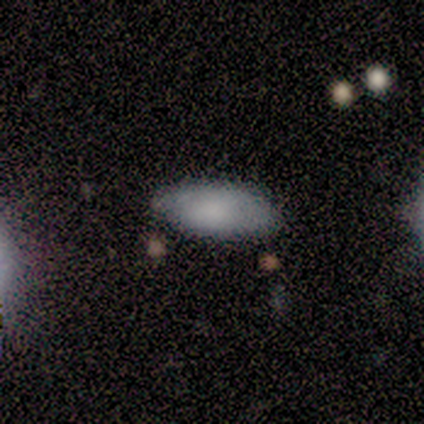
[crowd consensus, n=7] Smooth or featured? 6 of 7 (86%) said smooth. How rounded? 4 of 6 (67%) said in between. Merging? 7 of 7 (100%) said none.